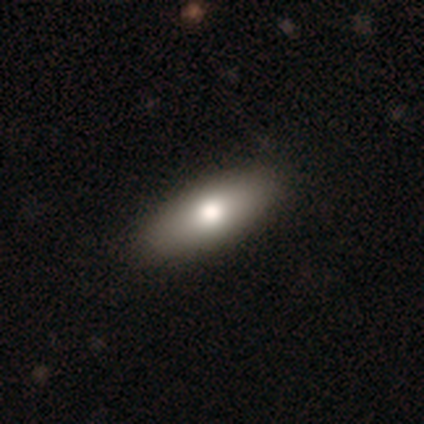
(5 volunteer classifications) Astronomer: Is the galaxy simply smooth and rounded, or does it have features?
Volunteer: featured or disk — 60% (runner-up: smooth, 40%).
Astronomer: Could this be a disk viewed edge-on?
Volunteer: yes — 67%.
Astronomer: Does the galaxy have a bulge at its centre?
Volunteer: rounded — 100%.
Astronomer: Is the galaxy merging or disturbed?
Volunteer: none — 100%.